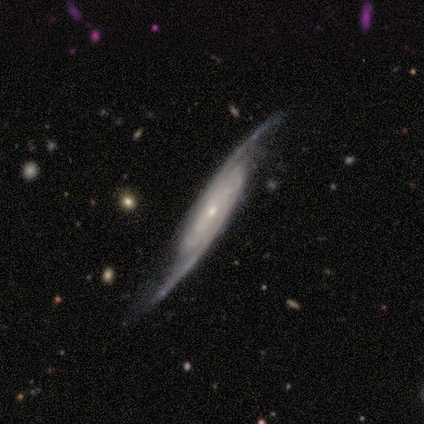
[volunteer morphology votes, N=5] Smooth or featured? 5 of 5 (100%) said featured or disk. Edge-on disk? 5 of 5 (100%) said no. Bar? 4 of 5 (80%) said no. Spiral arms? 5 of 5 (100%) said yes. Spiral winding? 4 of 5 (80%) said tight. Spiral arm count? 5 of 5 (100%) said 2. Bulge size? 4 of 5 (80%) said small. Merging? 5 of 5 (100%) said none.